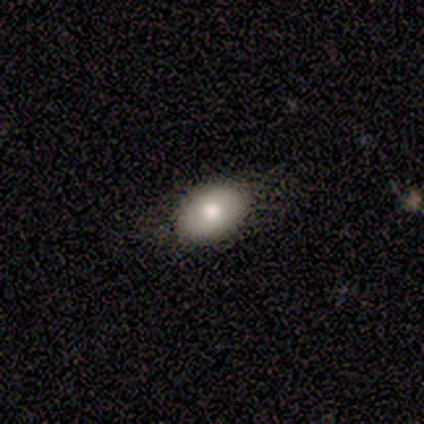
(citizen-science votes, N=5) Volunteers were most divided on "how rounded": in between: 75%, round: 25%, cigar-shaped: 0%. More confident: merging — none (100%); smooth or featured — smooth (80%).